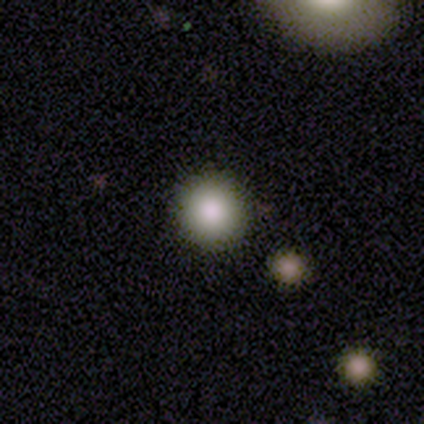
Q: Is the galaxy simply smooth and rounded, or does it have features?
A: smooth — 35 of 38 (92%).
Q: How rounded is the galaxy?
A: round — 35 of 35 (100%).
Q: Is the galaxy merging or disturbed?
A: none — 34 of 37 (92%).